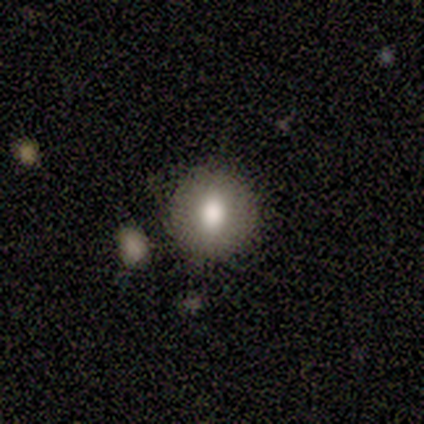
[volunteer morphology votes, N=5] smooth-or-featured: smooth: 100% | featured or disk: 0% | star or artifact: 0%
  how-rounded: round: 80% | in between: 20% | cigar-shaped: 0%
  merging: none: 40% (tied) | minor disturbance: 40% (tied) | major disturbance: 20% | merger: 0%